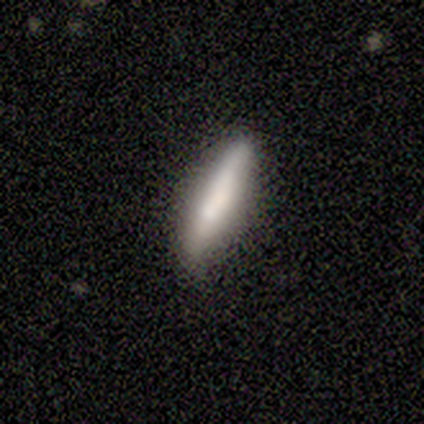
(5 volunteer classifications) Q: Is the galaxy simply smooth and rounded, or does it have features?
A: smooth — 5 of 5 (100%).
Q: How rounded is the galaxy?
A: cigar-shaped — 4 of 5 (80%).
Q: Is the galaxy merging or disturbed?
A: none — 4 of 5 (80%).